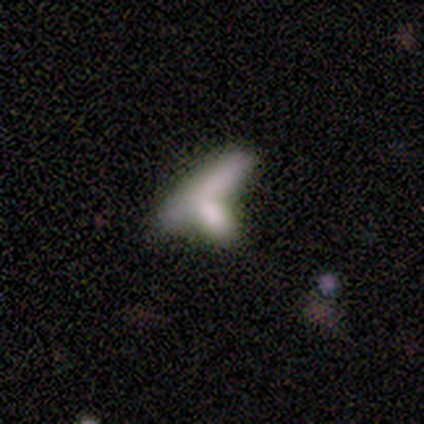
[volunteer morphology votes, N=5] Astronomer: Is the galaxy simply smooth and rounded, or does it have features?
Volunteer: smooth — 80%.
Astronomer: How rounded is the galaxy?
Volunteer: in between — 50%, tied with cigar-shaped at 50%.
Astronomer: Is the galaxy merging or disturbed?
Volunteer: none — 60%.